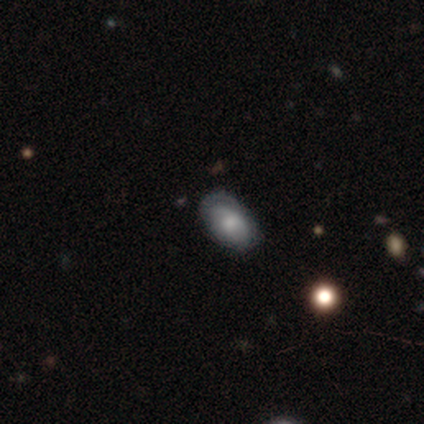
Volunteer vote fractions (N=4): Morphology: type=featured or disk (75%); edge-on=no (100%); bar=no (100%); spiral arms=yes (67%); winding=tight (100%); arm count=1 (50%, tied with can't tell); bulge=large (33%, tied with moderate and small); merging=none (75%).